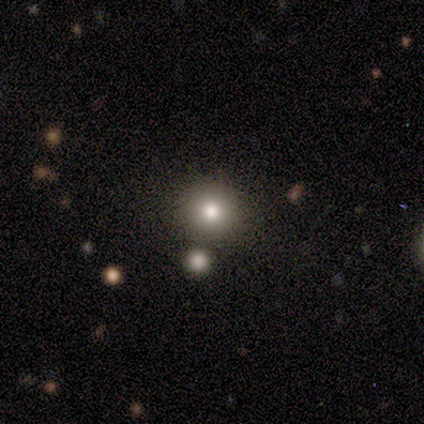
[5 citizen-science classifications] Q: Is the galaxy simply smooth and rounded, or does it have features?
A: smooth — 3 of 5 (60%).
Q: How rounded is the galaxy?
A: round — 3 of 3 (100%).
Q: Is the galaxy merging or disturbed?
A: none — 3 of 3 (100%).